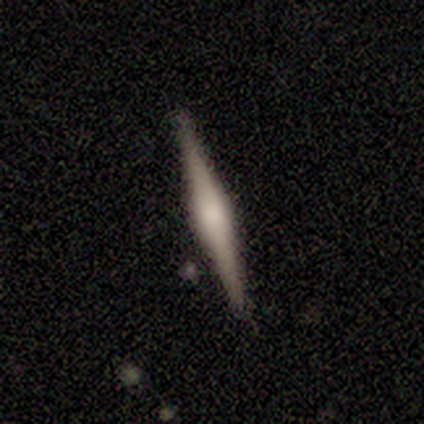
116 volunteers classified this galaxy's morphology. Smooth or featured? 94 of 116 (81%) said featured or disk. Edge-on disk? 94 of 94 (100%) said yes. Edge-on bulge? 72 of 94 (77%) said rounded. Merging? 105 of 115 (91%) said none.